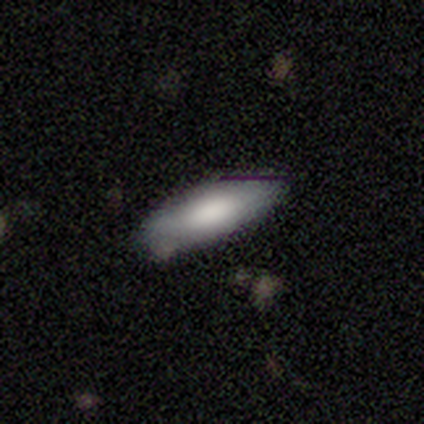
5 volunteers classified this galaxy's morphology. Smooth or featured: smooth — 60% (featured or disk — 40%)
How rounded: cigar-shaped — 100%
Merging: none — 100%